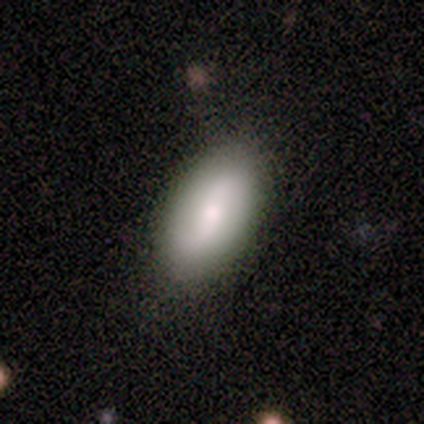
smooth_or_featured: smooth (p=0.80) [alt: featured or disk p=0.20]
how_rounded: in between (p=0.75) [alt: cigar-shaped p=0.25]
merging: none (p=0.80) [alt: minor disturbance p=0.20]